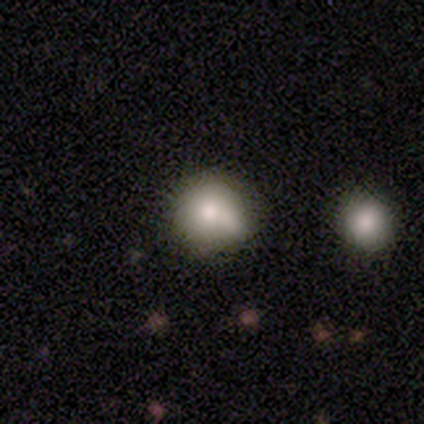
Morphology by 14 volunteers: This is likely a smooth galaxy (64%). How rounded: clearly round (89%). Merging: likely none (69%).